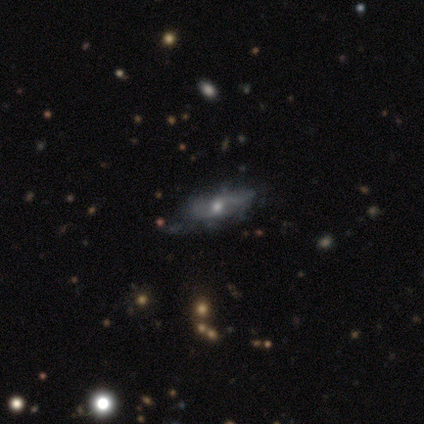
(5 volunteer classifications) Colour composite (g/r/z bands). It shows a smooth galaxy with no disk features (60%) that is in between round and cigar-shaped (67%). Merging: none (80%).